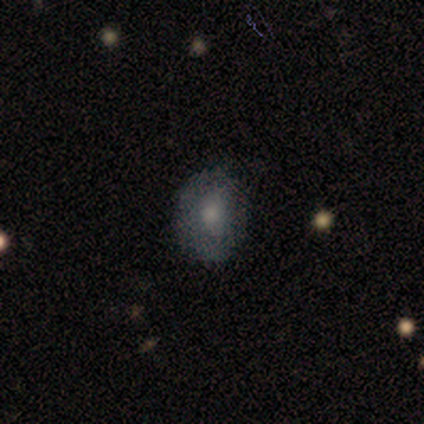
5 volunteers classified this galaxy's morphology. Smooth or featured? smooth (80%)
How rounded? round (50%, tied with in between)
Merging? none (100%)